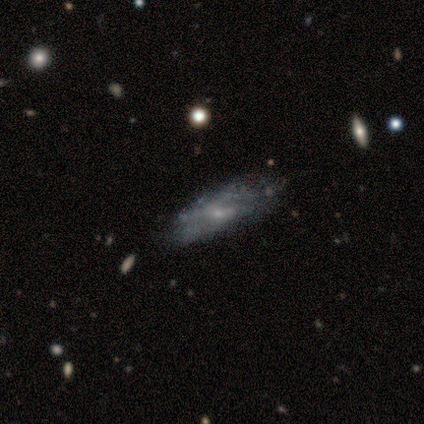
Q: Smooth or featured?
A: featured or disk (100%)
Q: Edge-on disk?
A: no (67%); runner-up: yes (33%)
Q: Bar?
A: weak (50%); tied with: no (50%)
Q: Spiral arms?
A: yes (50%); tied with: no (50%)
Q: Spiral winding?
A: loose (100%)
Q: Spiral arm count?
A: 2 (100%)
Q: Bulge size?
A: small (50%); tied with: none (50%)
Q: Merging?
A: none (67%); runner-up: minor disturbance (33%)